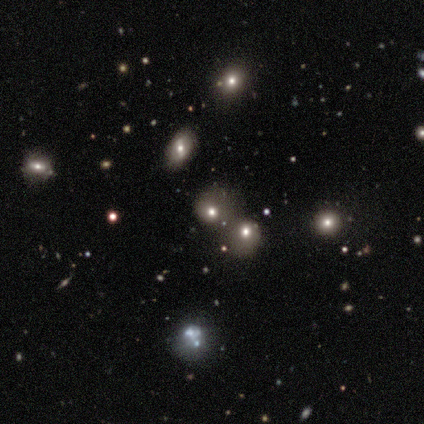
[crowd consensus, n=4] Q: Smooth or featured?
A: smooth (75%); runner-up: featured or disk (25%)
Q: How rounded?
A: round (100%)
Q: Merging?
A: merger (50%); runner-up: minor disturbance (25%)